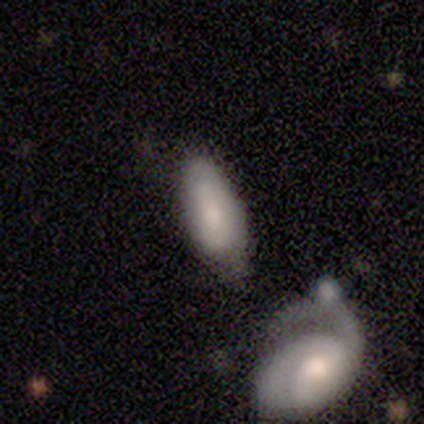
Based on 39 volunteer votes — smooth_or_featured: smooth (p=0.64) [alt: featured or disk p=0.33]
how_rounded: in between (p=0.80) [alt: cigar-shaped p=0.16]
merging: none (p=0.34) [alt: merger p=0.32]